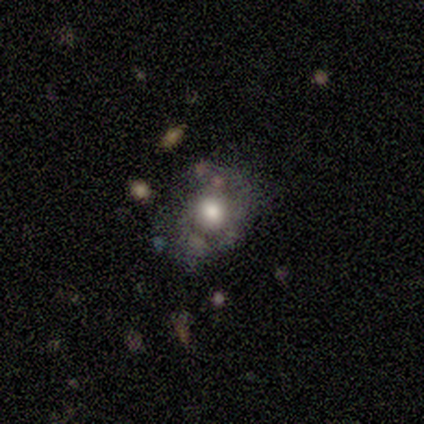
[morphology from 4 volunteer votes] A smooth galaxy with no disk features (75%) that is in between round and cigar-shaped (67%).

Vote fractions:
- Smooth or featured? smooth: 75% / featured or disk: 25% / star or artifact: 0%
- How rounded? in between: 67% / round: 33% / cigar-shaped: 0%
- Merging? none: 75% / minor disturbance: 25% / major disturbance: 0% / merger: 0%